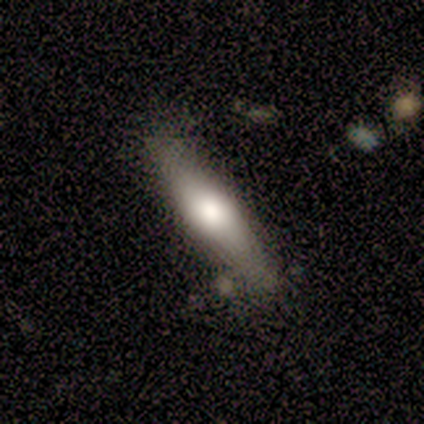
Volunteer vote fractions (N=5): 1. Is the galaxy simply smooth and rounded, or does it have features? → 80% featured or disk, 20% smooth, 0% star or artifact.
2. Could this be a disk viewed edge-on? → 50% yes (tied), 50% no (tied).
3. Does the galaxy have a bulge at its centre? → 100% rounded, 0% boxy, 0% none.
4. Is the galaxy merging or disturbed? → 80% none, 20% minor disturbance, 0% major disturbance, 0% merger.